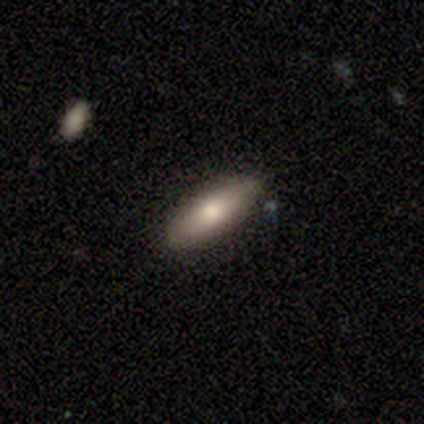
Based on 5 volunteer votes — A smooth galaxy with no disk features (80%) that is in between round and cigar-shaped (50%, tied with cigar-shaped).

Vote fractions:
- Smooth or featured? smooth: 80% / featured or disk: 20% / star or artifact: 0%
- How rounded? in between: 50% (tied) / cigar-shaped: 50% (tied) / round: 0%
- Merging? none: 100% / minor disturbance: 0% / major disturbance: 0% / merger: 0%